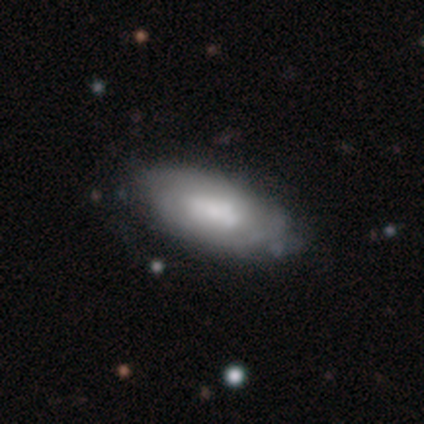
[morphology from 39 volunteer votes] smooth-or-featured: featured or disk: 51% | smooth: 46% | star or artifact: 3%
  disk-edge-on: no: 90% | yes: 10%
    bar: no: 67% | strong: 28% | weak: 6%
    has-spiral-arms: yes: 61% | no: 39%
      spiral-winding: medium: 45% | tight: 36% | loose: 18%
      spiral-arm-count: can't tell: 45% | 2: 27% | 3: 27% | 1: 0% | 4: 0% | more than 4: 0%
    bulge-size: large: 28% | moderate: 22% | none: 22% | small: 17% | dominant: 11%
  merging: none: 61% | minor disturbance: 34% | merger: 5% | major disturbance: 0%